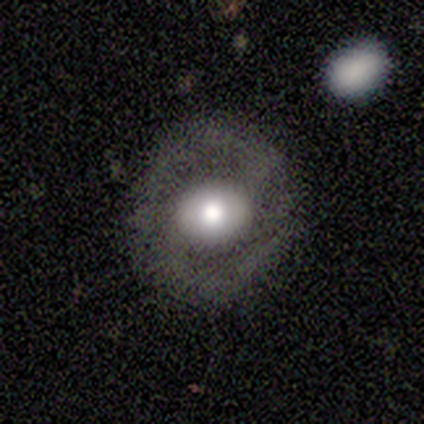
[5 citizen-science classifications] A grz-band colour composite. It shows a smooth galaxy with no disk features (60%) that is in between round and cigar-shaped (67%). Merging: none (100%).